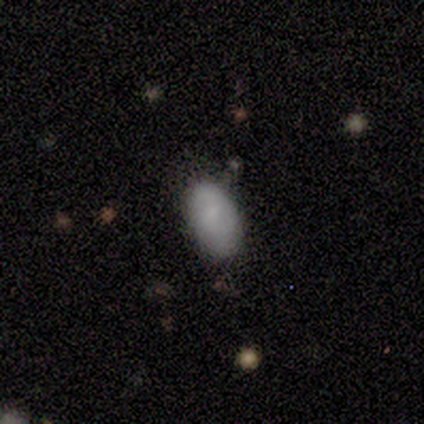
This is likely a smooth galaxy (60%). How rounded: likely in between (67%). Merging: likely none (60%).